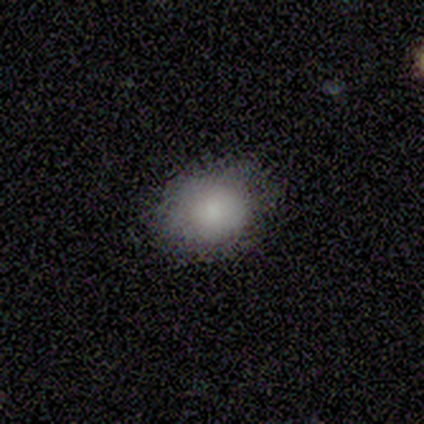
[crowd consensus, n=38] A smooth galaxy with no disk features (76%) that is round (66%).

Vote fractions:
- Smooth or featured? smooth: 76% / featured or disk: 21% / star or artifact: 3%
- How rounded? round: 66% / in between: 34% / cigar-shaped: 0%
- Merging? none: 81% / minor disturbance: 14% / major disturbance: 3% / merger: 3%